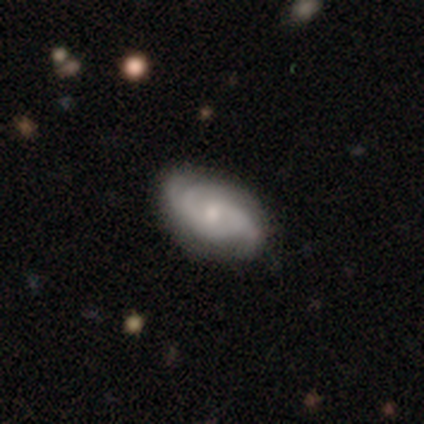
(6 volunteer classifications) Morphology: type=featured or disk (67%); edge-on=no (100%); bar=weak (50%); spiral arms=yes (100%); winding=loose (75%); arm count=2 (50%); bulge=small (50%); merging=minor disturbance (50%).